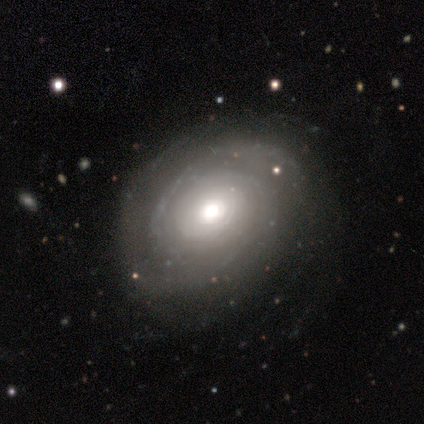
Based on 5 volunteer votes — Smooth or featured? featured or disk (80%)
Edge-on disk? no (100%)
Bar? no (75%)
Spiral arms? yes (100%)
Spiral winding? tight (100%)
Spiral arm count? 3 (50%, tied with can't tell)
Bulge size? dominant (50%)
Merging? none (100%)